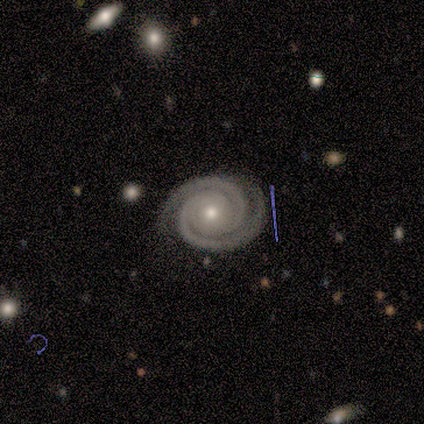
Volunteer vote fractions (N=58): This appears to be a featured or disk galaxy (88%) with no bar (88%), 2 (88%) tight (94%) spiral arms (100%) and a small central bulge (56%). Merging: none (91%).